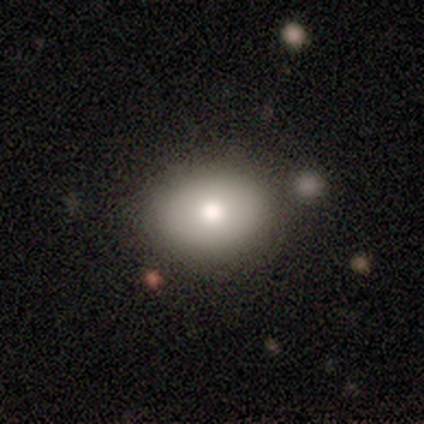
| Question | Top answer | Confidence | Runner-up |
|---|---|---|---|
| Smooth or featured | smooth | 80% | featured or disk (20%) |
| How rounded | round | 75% | in between (25%) |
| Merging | none | 80% | minor disturbance (20%) |